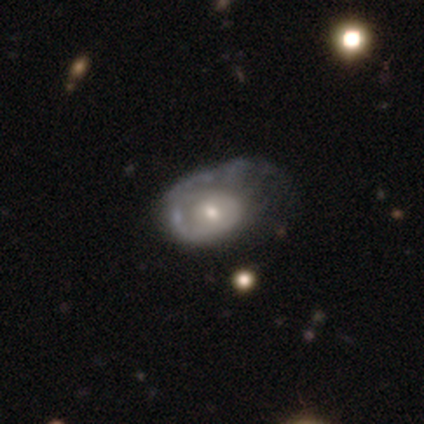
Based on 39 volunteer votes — Smooth or featured? 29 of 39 (74%) said featured or disk. Edge-on disk? 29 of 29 (100%) said no. Bar? 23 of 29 (79%) said no. Spiral arms? 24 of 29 (83%) said yes. Spiral winding? 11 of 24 (46%) said tight. Spiral arm count? 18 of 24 (75%) said 1. Bulge size? 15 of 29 (52%) said small. Merging? 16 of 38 (42%) said major disturbance.